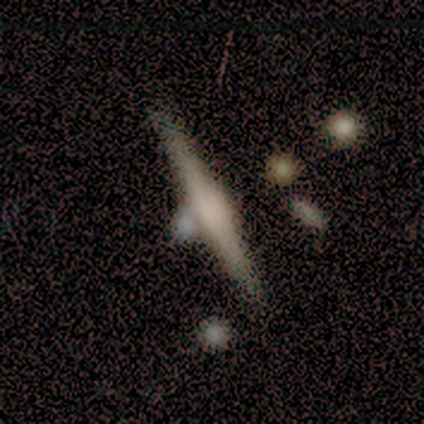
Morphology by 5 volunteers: Volunteers were most divided on "smooth or featured": featured or disk: 60%, smooth: 40%, star or artifact: 0%. More confident: edge-on disk — yes (100%); edge-on bulge — rounded (67%); merging — none (60%).